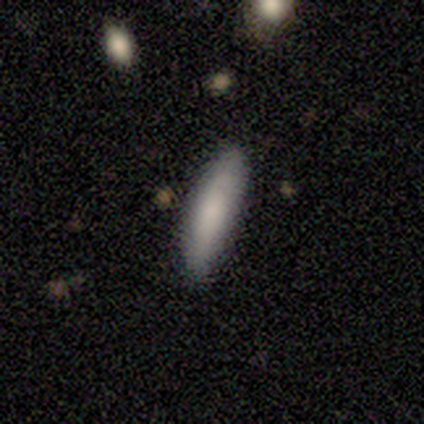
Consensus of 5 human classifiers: Q: Smooth or featured?
A: smooth (80%); runner-up: featured or disk (20%)
Q: How rounded?
A: in between (50%); tied with: cigar-shaped (50%)
Q: Merging?
A: none (100%)